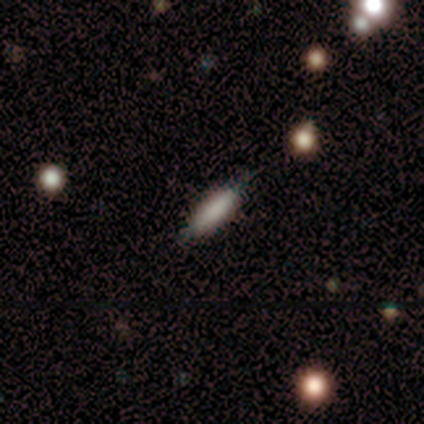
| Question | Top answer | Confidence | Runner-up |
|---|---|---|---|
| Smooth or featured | smooth | 79% | featured or disk (18%) |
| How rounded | cigar-shaped | 74% | in between (26%) |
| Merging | none | 74% | minor disturbance (24%) |